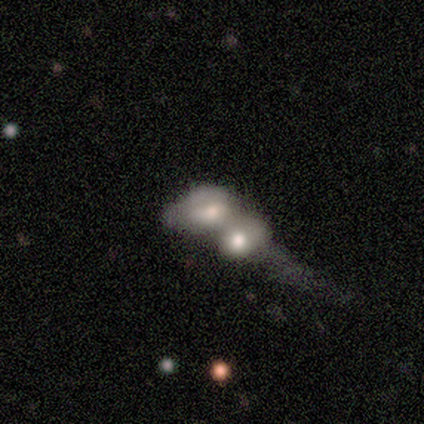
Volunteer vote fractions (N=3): A smooth galaxy with no disk features (67%) that is round (50%, tied with in between).

Vote fractions:
- Smooth or featured? smooth: 67% / featured or disk: 33% / star or artifact: 0%
- How rounded? round: 50% (tied) / in between: 50% (tied) / cigar-shaped: 0%
- Merging? merger: 100% / none: 0% / minor disturbance: 0% / major disturbance: 0%